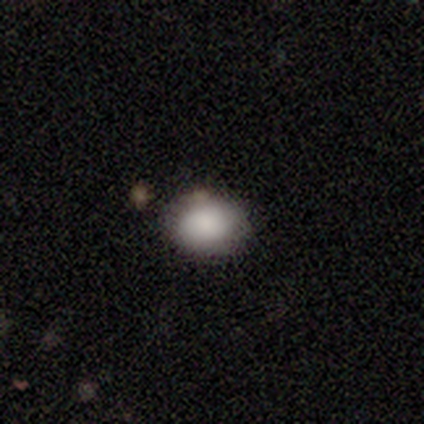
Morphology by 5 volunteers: smooth-or-featured: smooth: 100% | featured or disk: 0% | star or artifact: 0%
  how-rounded: in between: 80% | round: 20% | cigar-shaped: 0%
  merging: none: 80% | merger: 20% | minor disturbance: 0% | major disturbance: 0%